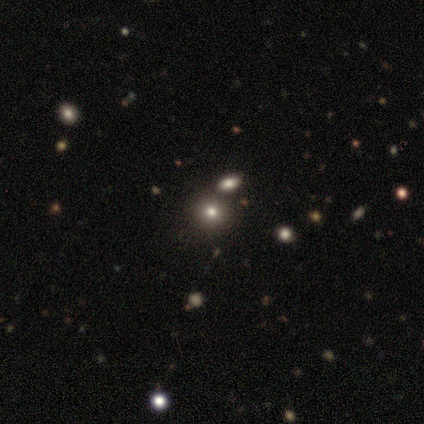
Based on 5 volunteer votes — Smooth or featured? 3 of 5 (60%) said smooth. How rounded? 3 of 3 (100%) said round. Merging? 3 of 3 (100%) said none.